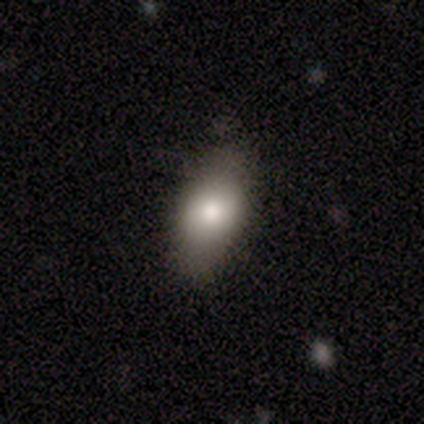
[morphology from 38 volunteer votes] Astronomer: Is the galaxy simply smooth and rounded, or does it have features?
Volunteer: smooth — 82%.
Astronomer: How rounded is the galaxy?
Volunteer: in between — 84%.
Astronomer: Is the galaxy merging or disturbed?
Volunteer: none — 62%.